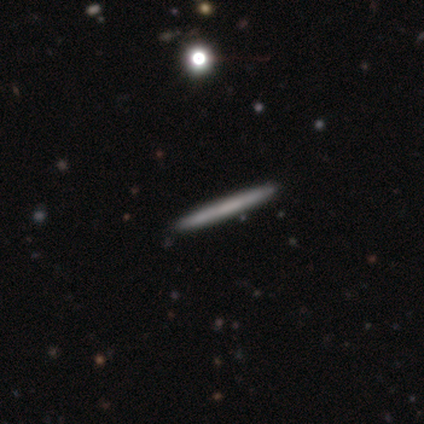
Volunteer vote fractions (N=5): Smooth or featured? 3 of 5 (60%) said featured or disk. Edge-on disk? 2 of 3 (67%) said yes. Edge-on bulge? 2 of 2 (100%) said none. Merging? 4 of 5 (80%) said none.